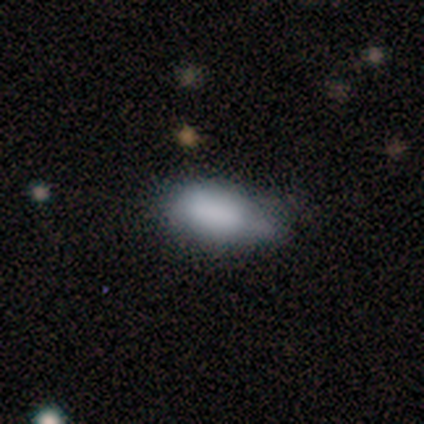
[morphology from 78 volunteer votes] Smooth or featured? smooth (87%)
How rounded? in between (96%)
Merging? minor disturbance (23%)